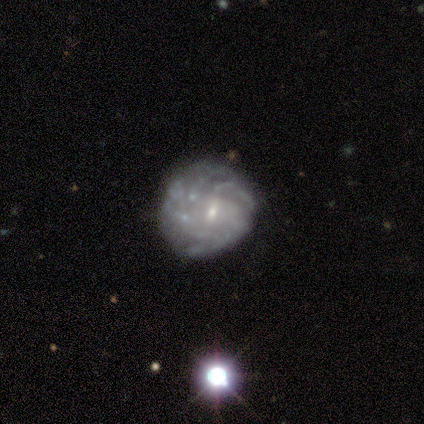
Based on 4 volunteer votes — A featured or disk galaxy (100%) with a weak bar (50%, tied with no), more than 4 (100%) tight (50%, tied with medium) spiral arms (50%, tied with no) and a small central bulge (100%). Merging: none (100%).